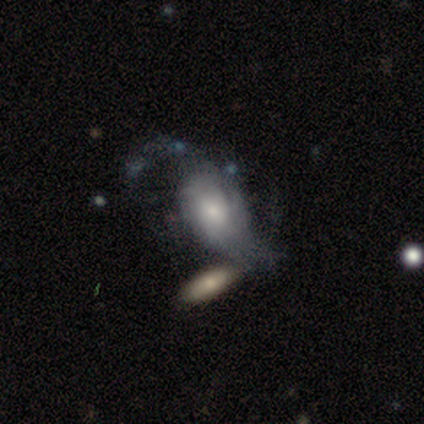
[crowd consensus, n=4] Smooth or featured? smooth (50%, tied with featured or disk)
How rounded? round (50%, tied with in between)
Merging? minor disturbance (75%)